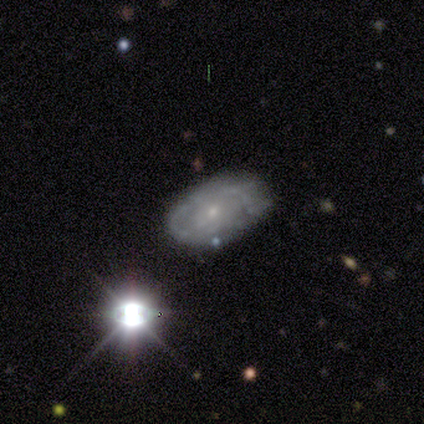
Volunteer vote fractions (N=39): A featured or disk galaxy (46%) with no bar (75%), 1 (38%, tied with can't tell) tight (75%) spiral arms (50%, tied with no) and a small central bulge (81%).

Vote fractions:
- Smooth or featured? featured or disk: 46% / smooth: 31% / star or artifact: 23%
- Edge-on disk? no: 89% / yes: 11%
- Bar? no: 75% / weak: 19% / strong: 6%
- Spiral arms? yes: 50% (tied) / no: 50% (tied)
- Spiral winding? tight: 75% / medium: 12% / loose: 12%
- Spiral arm count? 1: 38% (tied) / can't tell: 38% (tied) / 2: 25% / 3: 0% / 4: 0% / more than 4: 0%
- Bulge size? small: 81% / moderate: 19% / dominant: 0% / large: 0% / none: 0%
- Merging? none: 47% / minor disturbance: 37% / major disturbance: 13% / merger: 3%